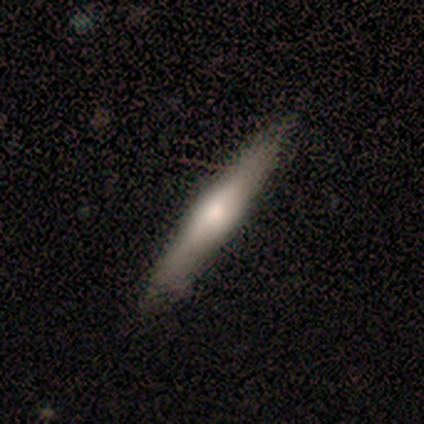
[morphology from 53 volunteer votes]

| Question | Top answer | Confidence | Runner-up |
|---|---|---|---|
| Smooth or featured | featured or disk | 66% | smooth (28%) |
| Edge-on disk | yes | 97% | no (3%) |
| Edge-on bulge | rounded | 74% | boxy (15%) |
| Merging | none | 86% | minor disturbance (12%) |